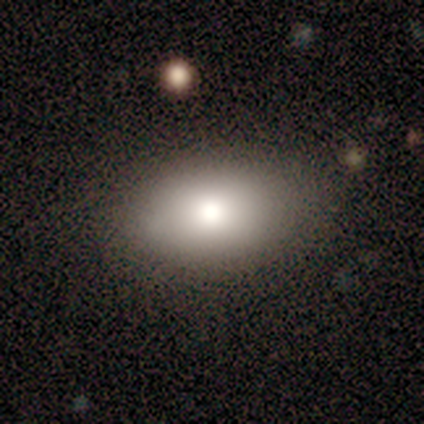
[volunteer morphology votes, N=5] This is clearly a smooth galaxy (80%). How rounded: likely in between (75%). Merging: clearly none (100%).